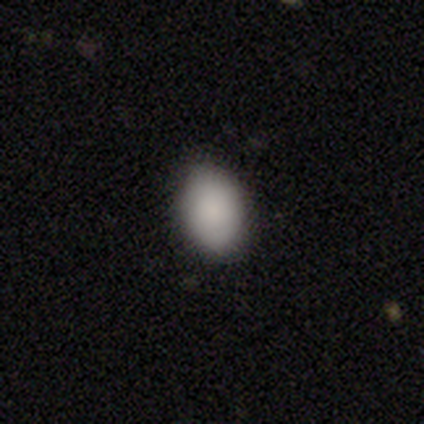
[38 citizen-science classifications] A smooth galaxy with no disk features (92%) that is in between round and cigar-shaped (86%). Merging: none (97%).